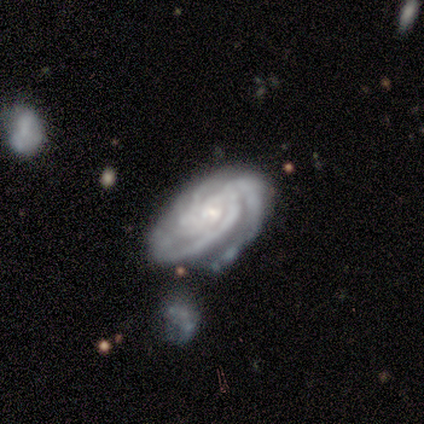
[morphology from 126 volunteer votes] featured or disk 95%, smooth 4%, star or artifact 1%. Down the decision tree: edge-on disk — no (100%); bar — no (73%); spiral arms — yes (99%); spiral arm count — 3 (41%); spiral winding — tight (80%); bulge size — small (68%); merging — none (50%).